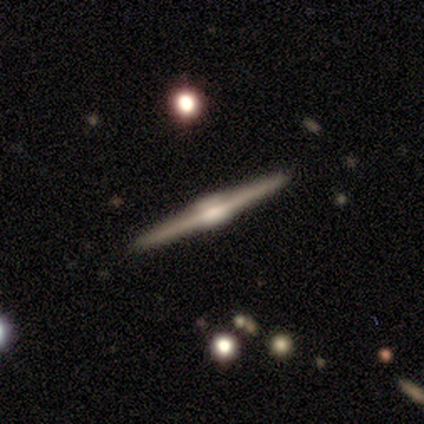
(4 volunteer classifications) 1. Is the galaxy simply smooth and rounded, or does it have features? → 50% smooth (tied), 50% featured or disk (tied), 0% star or artifact.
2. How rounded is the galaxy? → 100% cigar-shaped, 0% round, 0% in between.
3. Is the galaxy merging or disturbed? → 75% none, 25% major disturbance, 0% minor disturbance, 0% merger.